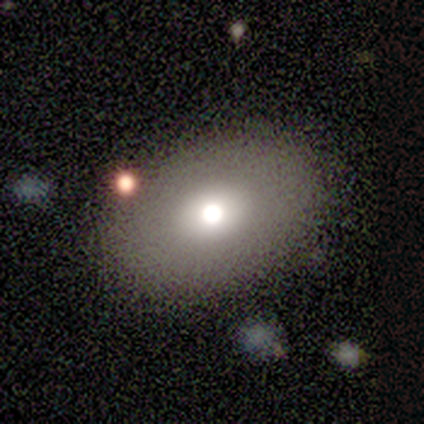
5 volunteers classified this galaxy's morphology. Q: Smooth or featured?
A: smooth (40%); tied with: star or artifact (40%)
Q: How rounded?
A: round (50%); tied with: in between (50%)
Q: Merging?
A: none (100%)